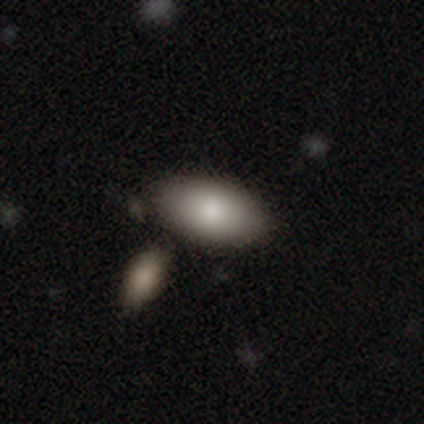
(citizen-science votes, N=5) Q: Smooth or featured?
A: smooth (100%)
Q: How rounded?
A: in between (100%)
Q: Merging?
A: none (60%); runner-up: merger (40%)